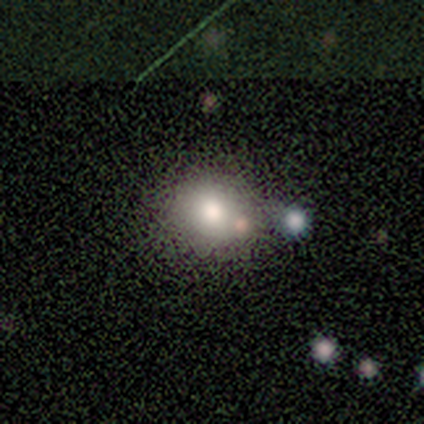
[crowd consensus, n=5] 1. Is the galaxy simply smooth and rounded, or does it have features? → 100% smooth, 0% featured or disk, 0% star or artifact.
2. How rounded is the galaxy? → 100% round, 0% in between, 0% cigar-shaped.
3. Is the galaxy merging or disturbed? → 100% none, 0% minor disturbance, 0% major disturbance, 0% merger.